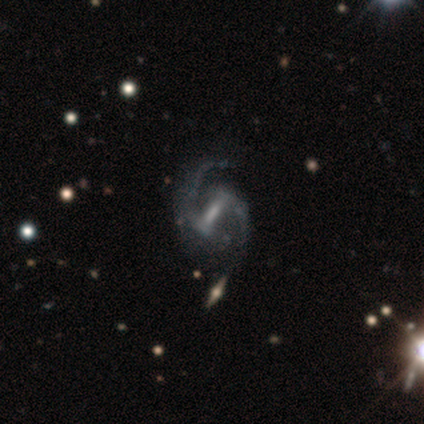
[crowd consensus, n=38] Morphology: type=featured or disk (89%); edge-on=no (94%); bar=strong (66%); spiral arms=yes (100%); winding=medium (59%); arm count=2 (100%); bulge=none (34%); merging=none (63%).